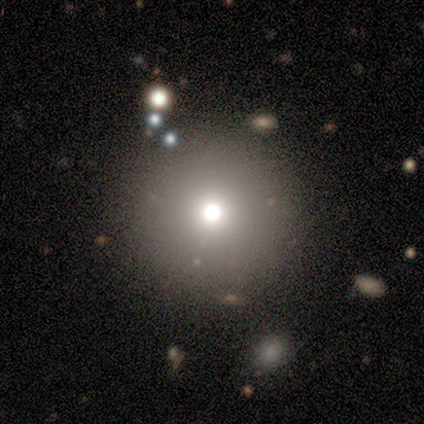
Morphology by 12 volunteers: smooth 50%, star or artifact 42%, featured or disk 8%. Down the decision tree: how rounded — round (100%); merging — none (100%).